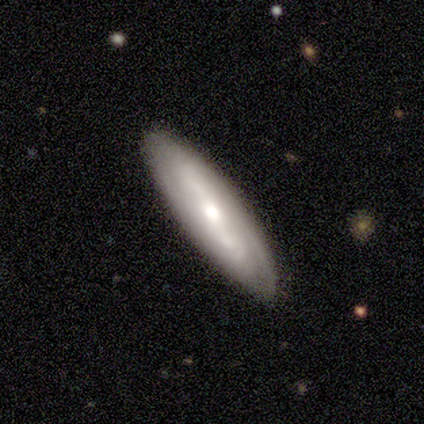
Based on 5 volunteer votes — Morphology: type=featured or disk (60%); edge-on=no (100%); bar=no (67%); spiral arms=yes (67%); winding=tight (50%, tied with loose); arm count=can't tell (100%); bulge=moderate (67%); merging=none (80%).